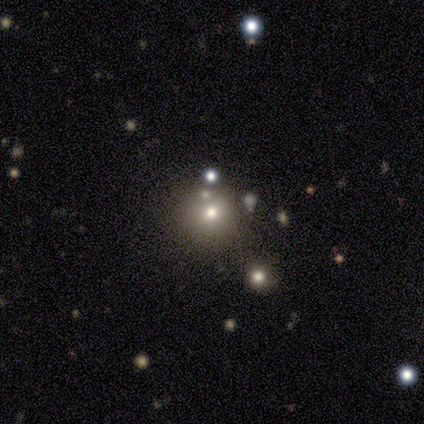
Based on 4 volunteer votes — A smooth galaxy with no disk features (100%) that is round (100%).

Vote fractions:
- Smooth or featured? smooth: 100% / featured or disk: 0% / star or artifact: 0%
- How rounded? round: 100% / in between: 0% / cigar-shaped: 0%
- Merging? none: 50% / minor disturbance: 25% / merger: 25% / major disturbance: 0%